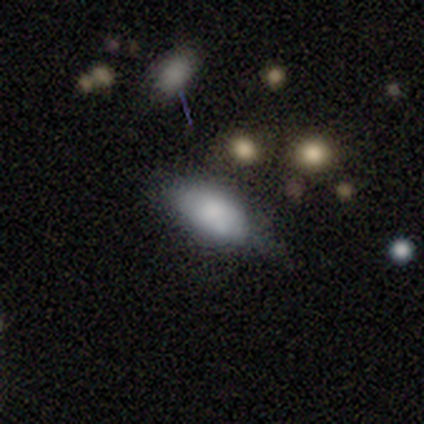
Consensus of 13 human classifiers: Smooth or featured? 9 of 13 (69%) said smooth. How rounded? 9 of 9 (100%) said in between. Merging? 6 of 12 (50%) said none.